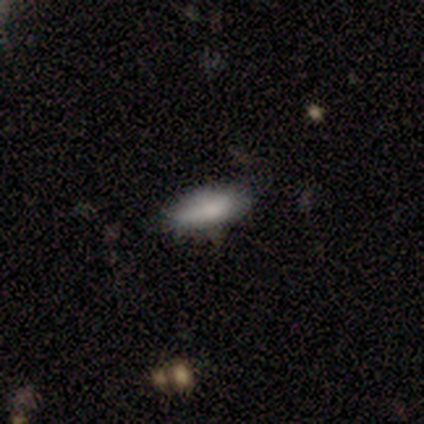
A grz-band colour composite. It shows a smooth galaxy with no disk features (80%) that is cigar-shaped (75%). Merging: none (80%).